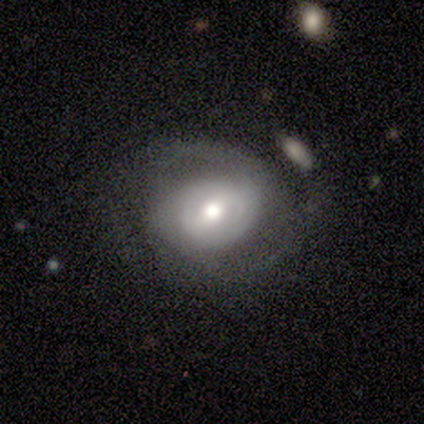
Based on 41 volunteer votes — Smooth or featured: featured or disk — 66% (smooth — 32%)
Edge-on disk: no — 100%
Bar: no — 48% (weak — 37%)
Spiral arms: yes — 78% (no — 22%)
Spiral winding: tight — 43% (medium — 33%)
Spiral arm count: 2 — 48% (can't tell — 38%)
Bulge size: moderate — 70% (large — 11%)
Merging: none — 55% (major disturbance — 20%)